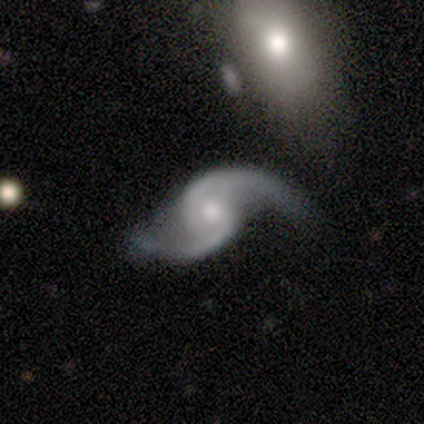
Smooth or featured? 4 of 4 (100%) said featured or disk. Edge-on disk? 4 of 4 (100%) said no. Bar? 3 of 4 (75%) said weak. Spiral arms? 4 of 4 (100%) said yes. Spiral winding? 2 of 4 (50%, tied with loose) said medium. Spiral arm count? 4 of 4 (100%) said 2. Bulge size? 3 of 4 (75%) said small. Merging? 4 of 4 (100%) said none.